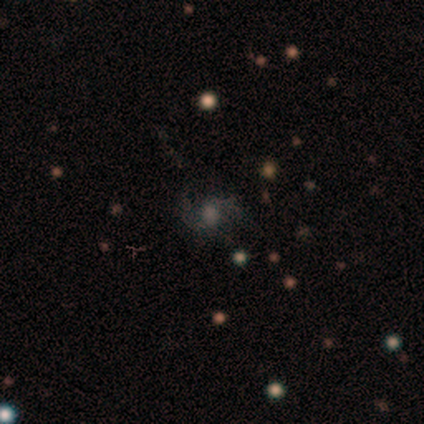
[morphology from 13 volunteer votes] This appears to be a featured or disk galaxy (62%) with no bar (88%), 2 (100%) medium (57%) spiral arms (88%) and a moderate central bulge (88%). Merging: none (73%).